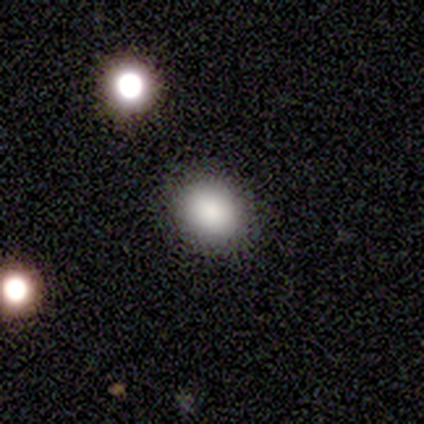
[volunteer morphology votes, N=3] This appears to be a smooth galaxy with no disk features (67%) that is round (50%, tied with in between). Merging: none (100%).